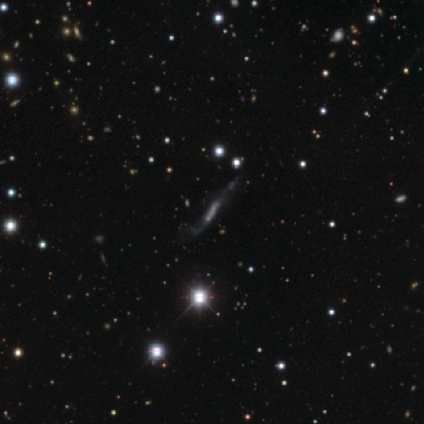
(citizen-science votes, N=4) Smooth or featured?
  - smooth: 50% * (tied)
  - featured or disk: 50% * (tied)
  - star or artifact: 0%
How rounded?
  - cigar-shaped: 100% *
  - round: 0%
  - in between: 0%
Merging?
  - minor disturbance: 75% *
  - none: 25%
  - major disturbance: 0%
  - merger: 0%